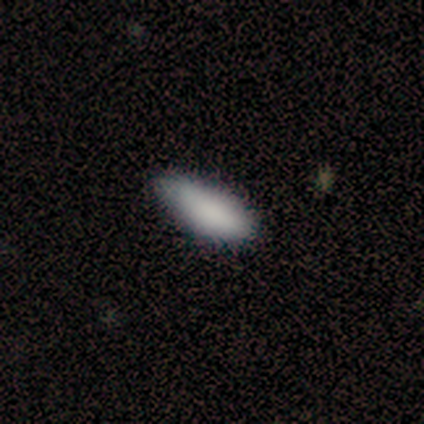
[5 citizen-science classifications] A smooth galaxy with no disk features (100%) that is cigar-shaped (60%).

Vote fractions:
- Smooth or featured? smooth: 100% / featured or disk: 0% / star or artifact: 0%
- How rounded? cigar-shaped: 60% / in between: 40% / round: 0%
- Merging? none: 80% / minor disturbance: 20% / major disturbance: 0% / merger: 0%